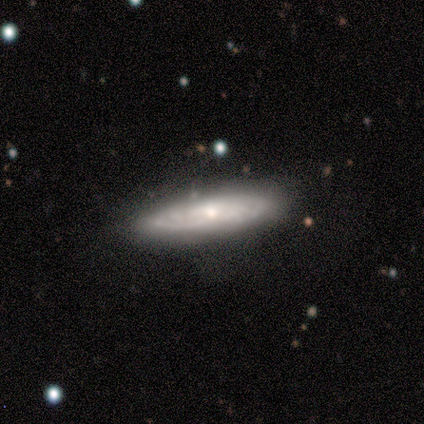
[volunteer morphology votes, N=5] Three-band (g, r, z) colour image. It shows a featured or disk galaxy (80%) viewed edge-on (50%, tied with no) with a rounded central bulge (100%). Merging: none (60%).